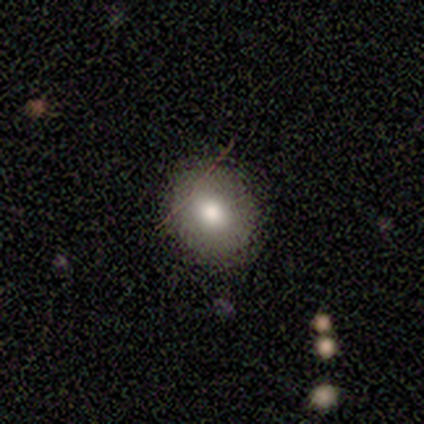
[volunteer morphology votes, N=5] Q: Smooth or featured?
A: smooth (80%); runner-up: featured or disk (20%)
Q: How rounded?
A: round (100%)
Q: Merging?
A: none (80%); runner-up: minor disturbance (20%)